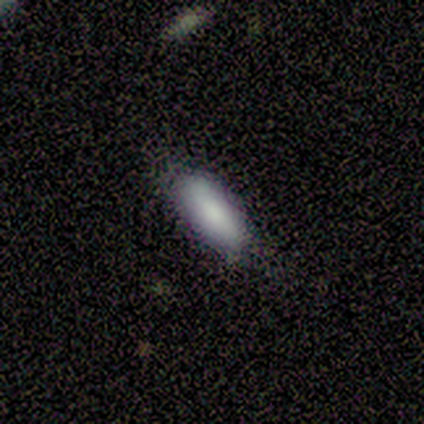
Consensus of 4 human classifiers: This appears to be a smooth galaxy with no disk features (100%) that is in between round and cigar-shaped (50%, tied with cigar-shaped). Merging: none (75%).